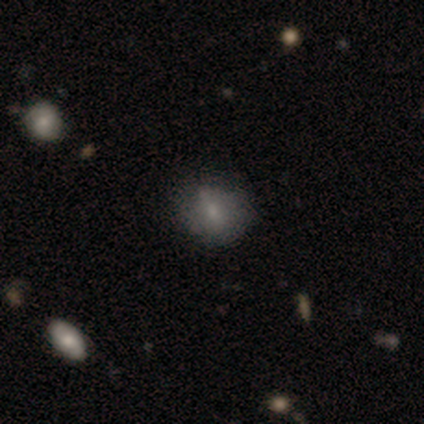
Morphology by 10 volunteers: Overall: smooth (70%; star or artifact 30%). How rounded: in between (57%; round 43%). Merging: none (71%).